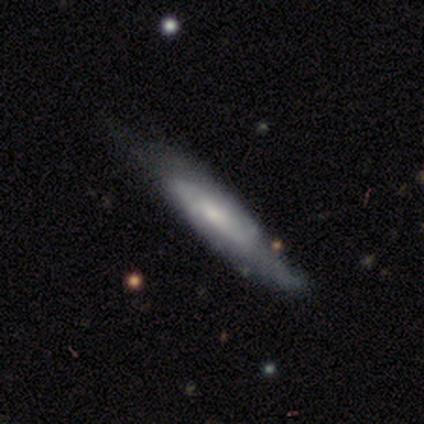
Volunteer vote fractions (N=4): Volunteers were most divided on "smooth or featured" (2-way tie): smooth: 50%, featured or disk: 50%, star or artifact: 0%; "how rounded" (2-way tie): in between: 50%, cigar-shaped: 50%, round: 0%. More confident: merging — none (75%).